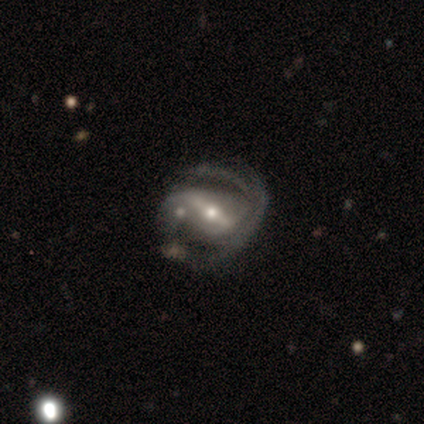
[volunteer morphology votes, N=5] Q: Smooth or featured?
A: featured or disk (60%); runner-up: smooth (40%)
Q: Edge-on disk?
A: no (100%)
Q: Bar?
A: weak (67%); runner-up: strong (33%)
Q: Spiral arms?
A: yes (100%)
Q: Spiral winding?
A: medium (100%)
Q: Spiral arm count?
A: 2 (100%)
Q: Bulge size?
A: small (67%); runner-up: moderate (33%)
Q: Merging?
A: none (60%); runner-up: minor disturbance (20%)